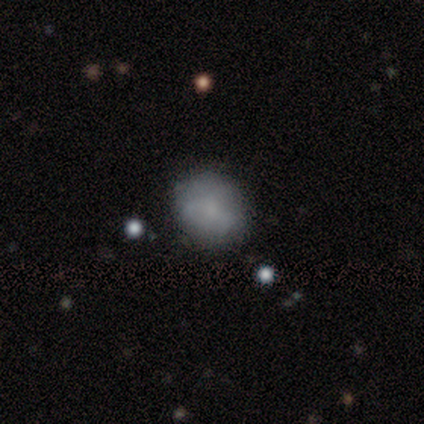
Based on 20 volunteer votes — Smooth or featured? smooth (75%)
How rounded? round (93%)
Merging? none (79%)